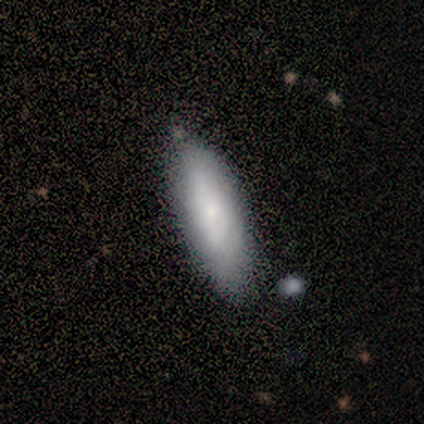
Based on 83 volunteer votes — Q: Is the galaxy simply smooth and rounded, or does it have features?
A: smooth — 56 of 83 (67%).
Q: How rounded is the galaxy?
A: in between — 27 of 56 (48%, tied with cigar-shaped).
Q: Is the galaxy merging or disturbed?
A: none — 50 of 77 (65%).